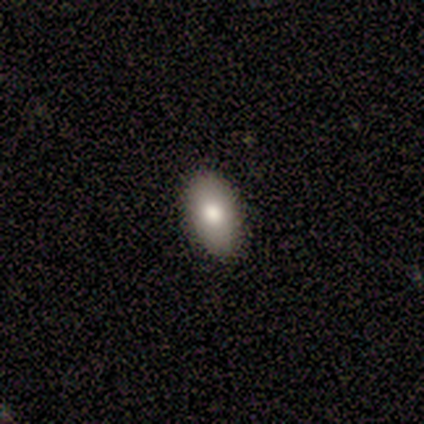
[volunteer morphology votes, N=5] A smooth galaxy with no disk features (40%, tied with featured or disk) that is in between round and cigar-shaped (100%). Merging: none (75%).